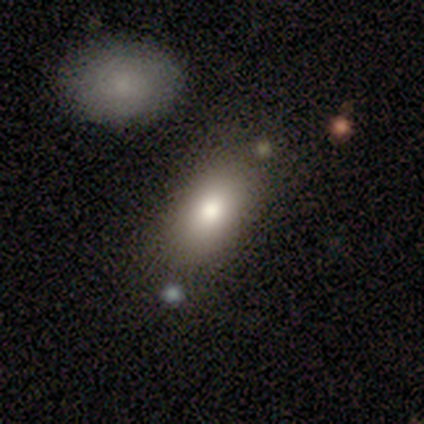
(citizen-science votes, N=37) A smooth galaxy with no disk features (86%) that is in between round and cigar-shaped (88%).

Vote fractions:
- Smooth or featured? smooth: 86% / featured or disk: 11% / star or artifact: 3%
- How rounded? in between: 88% / round: 9% / cigar-shaped: 3%
- Merging? none: 81% / minor disturbance: 14% / major disturbance: 3% / merger: 3%